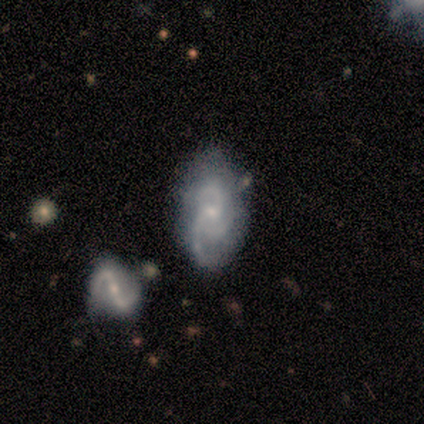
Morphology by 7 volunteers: This is likely a featured or disk galaxy (71%). It is clearly not viewed edge-on (80%). Bar: likely no (75%). Spiral arm pattern: clearly yes (100%). Spiral arm count: clearly 3 (100%). Spiral winding: likely medium (75%). Central bulge: likely small (75%). Merging: possibly none (50%).